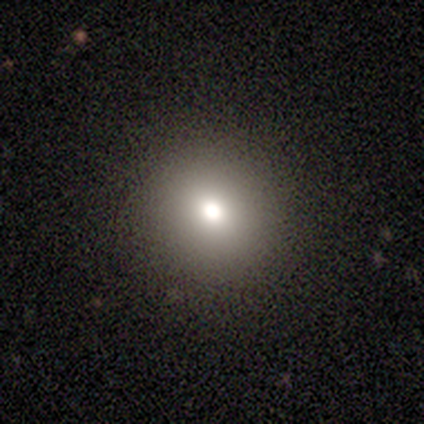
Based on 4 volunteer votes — Smooth or featured? smooth (75%)
How rounded? round (67%)
Merging? none (100%)